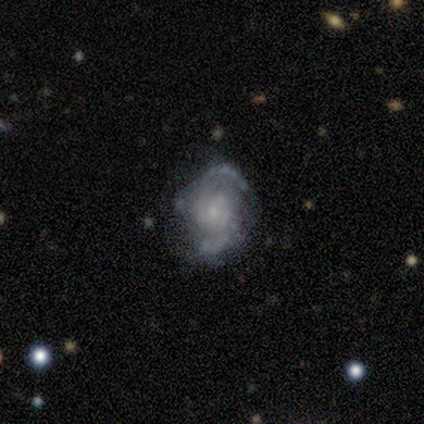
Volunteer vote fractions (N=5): smooth_or_featured: featured or disk (p=1.00)
disk_edge_on: no (p=1.00)
bar: no (p=0.60) [alt: weak p=0.40]
has_spiral_arms: yes (p=1.00)
spiral_winding: medium (p=0.60) [alt: tight p=0.20]
spiral_arm_count: 2 (p=0.80) [alt: 3 p=0.20]
bulge_size: moderate (p=0.40) [tied with: small p=0.40]
merging: none (p=1.00)